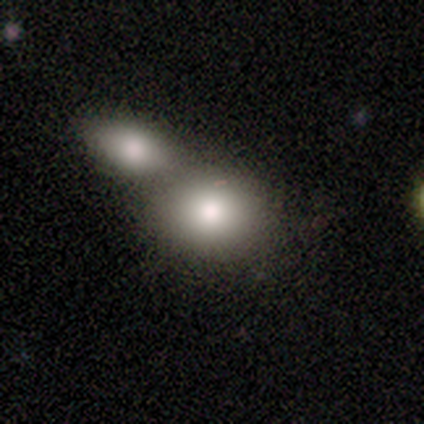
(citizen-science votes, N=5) Smooth or featured? 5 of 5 (100%) said smooth. How rounded? 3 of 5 (60%) said in between. Merging? 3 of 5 (60%) said merger.